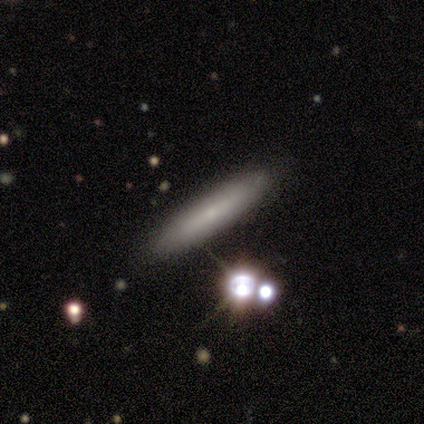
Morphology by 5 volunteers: A smooth galaxy with no disk features (60%) that is cigar-shaped (100%). Merging: none (100%).